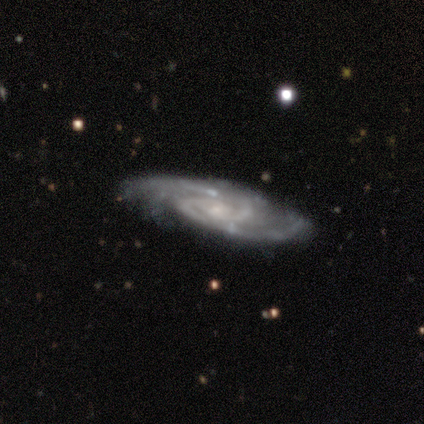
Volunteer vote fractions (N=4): Q: Smooth or featured?
A: featured or disk (100%)
Q: Edge-on disk?
A: no (100%)
Q: Bar?
A: no (100%)
Q: Spiral arms?
A: yes (100%)
Q: Spiral winding?
A: tight (75%); runner-up: loose (25%)
Q: Spiral arm count?
A: 2 (75%); runner-up: 3 (25%)
Q: Bulge size?
A: small (100%)
Q: Merging?
A: none (50%); tied with: minor disturbance (50%)